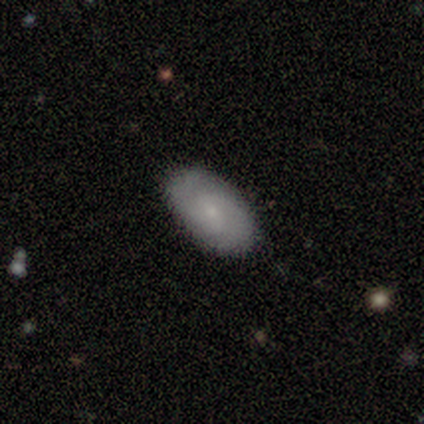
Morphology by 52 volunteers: smooth 50%, featured or disk 48%, star or artifact 2%. Down the decision tree: how rounded — in between (96%); merging — none (92%).